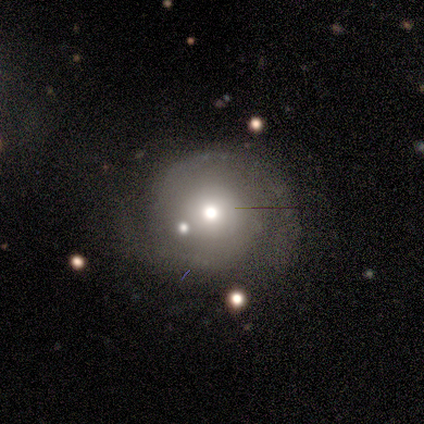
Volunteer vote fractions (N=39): This appears to be a featured or disk galaxy (74%) with no bar (93%), 2 (78%) tight (52%) spiral arms (93%) and a moderate central bulge (55%). Merging: none (74%).